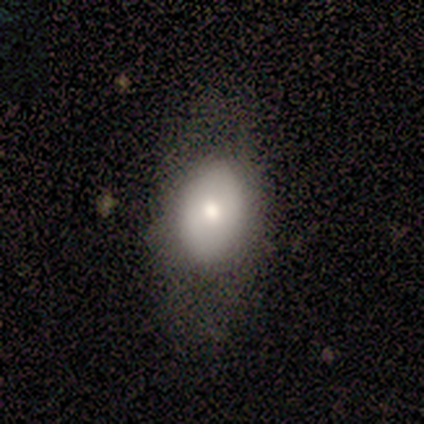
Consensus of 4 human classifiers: featured or disk 50%, smooth 25%, star or artifact 25%. Down the decision tree: edge-on disk — no (100%); bar — no (100%); spiral arms — yes (50%, tied with no); spiral arm count — 1 (100%); spiral winding — tight (100%); bulge size — small (50%, tied with none); merging — none (33%, tied with minor disturbance and merger).